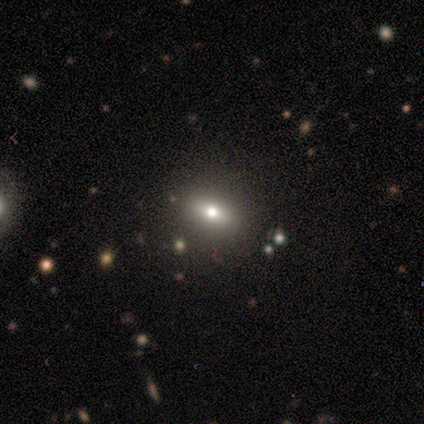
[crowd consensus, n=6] This appears to be a smooth galaxy with no disk features (50%) that is in between round and cigar-shaped (67%). Merging: none (80%).